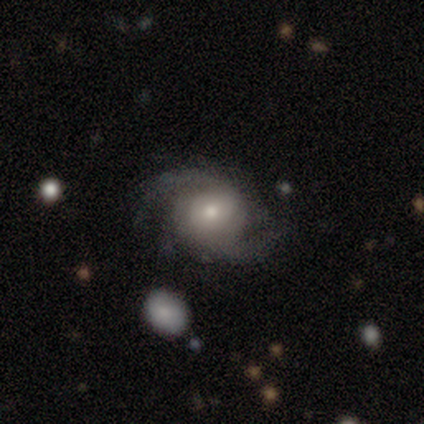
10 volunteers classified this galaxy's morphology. Smooth or featured? featured or disk (90%)
Edge-on disk? no (100%)
Bar? no (78%)
Spiral arms? yes (89%)
Spiral winding? medium (75%)
Spiral arm count? 2 (88%)
Bulge size? small (56%)
Merging? none (78%)